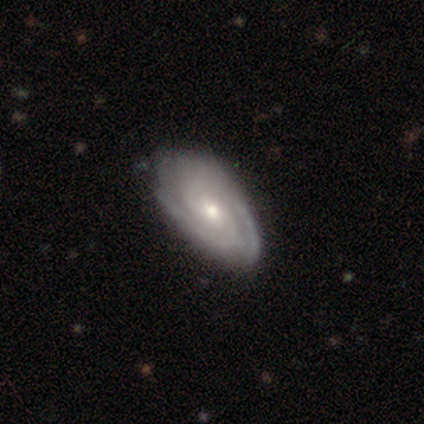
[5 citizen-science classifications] This appears to be a featured or disk galaxy (80%) with a weak bar (50%, tied with no), 2 (50%) tight (100%) spiral arms (100%) and a moderate central bulge (75%). Merging: none (60%).